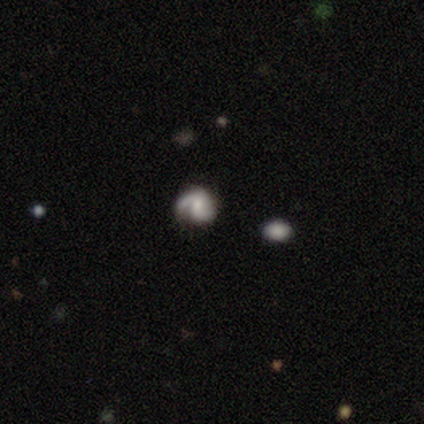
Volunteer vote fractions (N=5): This appears to be a featured or disk galaxy (80%) with a weak bar (50%, tied with no), 2 (75%) medium (50%) spiral arms (100%) and a moderate central bulge (50%, tied with small). Merging: none (50%, tied with minor disturbance).